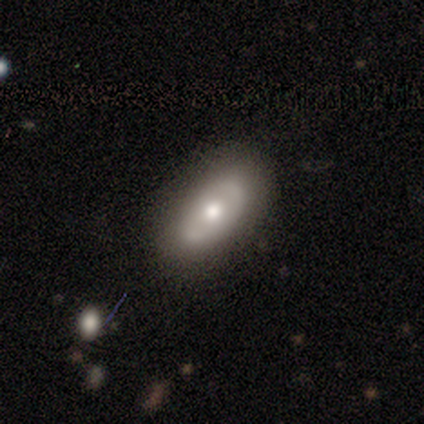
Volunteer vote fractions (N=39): A featured or disk galaxy (67%) with no bar (75%), no spiral arms (85%) and a moderate central bulge (75%). Merging: none (78%).